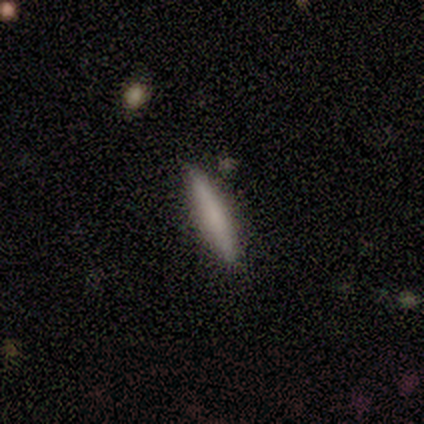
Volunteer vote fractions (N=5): Smooth or featured?
  - smooth: 60% *
  - star or artifact: 40%
  - featured or disk: 0%
How rounded?
  - cigar-shaped: 100% *
  - round: 0%
  - in between: 0%
Merging?
  - none: 67% *
  - minor disturbance: 33%
  - major disturbance: 0%
  - merger: 0%